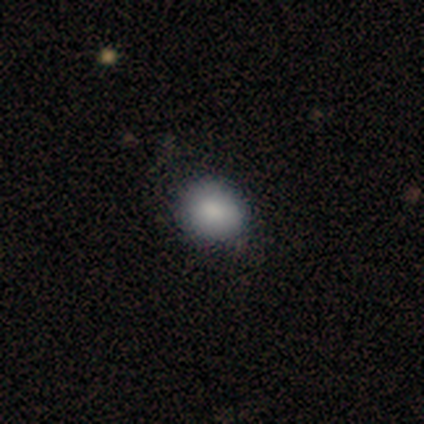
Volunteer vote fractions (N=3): Overall: smooth (67%; featured or disk 33%). How rounded: round (100%). Merging: none (67%; minor disturbance 33%).